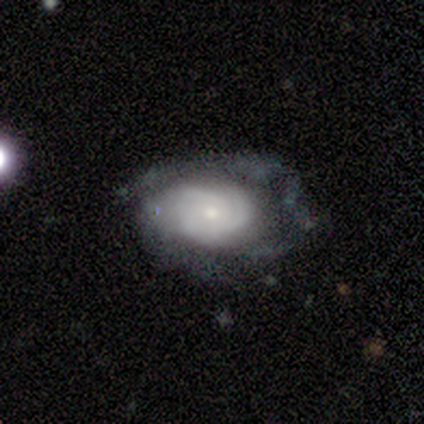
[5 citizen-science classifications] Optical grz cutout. It shows a featured or disk galaxy (100%) with no bar (100%), tight (33%, tied with medium and loose) spiral arms (60%) and a small central bulge (60%). Merging: none (60%).